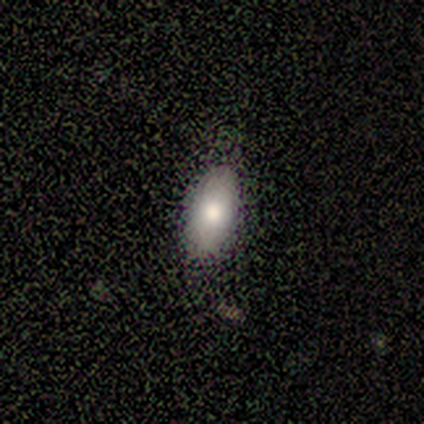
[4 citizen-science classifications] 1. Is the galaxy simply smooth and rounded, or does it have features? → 50% smooth, 25% featured or disk, 25% star or artifact.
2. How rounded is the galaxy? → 50% in between (tied), 50% cigar-shaped (tied), 0% round.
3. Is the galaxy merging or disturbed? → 67% none, 33% major disturbance, 0% minor disturbance, 0% merger.